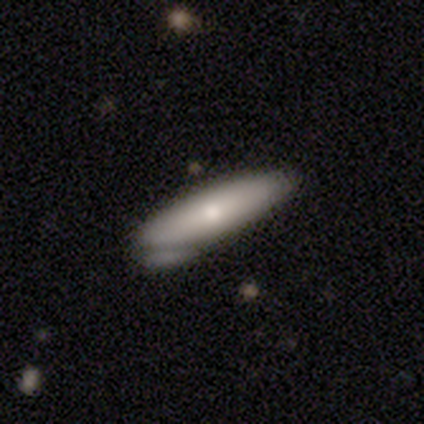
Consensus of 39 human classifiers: Smooth or featured: smooth — 62% (featured or disk — 26%)
How rounded: in between — 50% (tied with cigar-shaped — 50%)
Merging: none — 59% (minor disturbance — 29%)